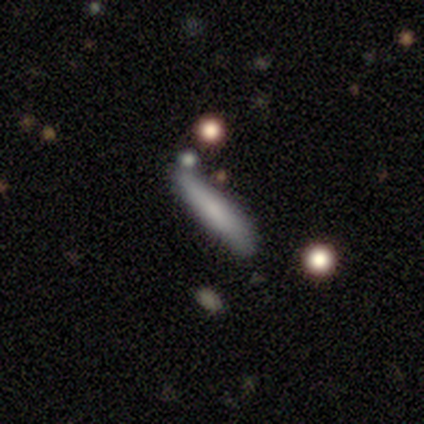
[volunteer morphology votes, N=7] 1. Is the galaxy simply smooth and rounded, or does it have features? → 100% smooth, 0% featured or disk, 0% star or artifact.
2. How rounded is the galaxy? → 86% cigar-shaped, 14% in between, 0% round.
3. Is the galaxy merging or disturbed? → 71% none, 29% minor disturbance, 0% major disturbance, 0% merger.